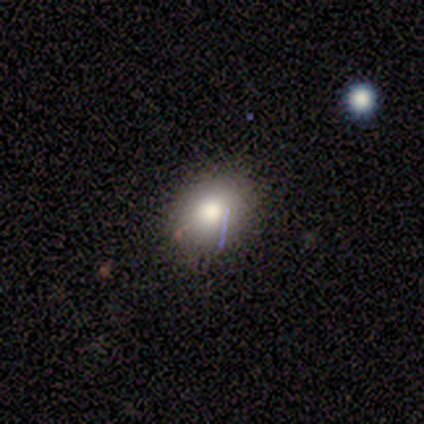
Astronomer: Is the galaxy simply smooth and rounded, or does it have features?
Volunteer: smooth — 60% (runner-up: star or artifact, 40%).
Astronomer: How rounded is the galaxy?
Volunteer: round — 100%.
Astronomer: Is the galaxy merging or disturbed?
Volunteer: none — 100%.